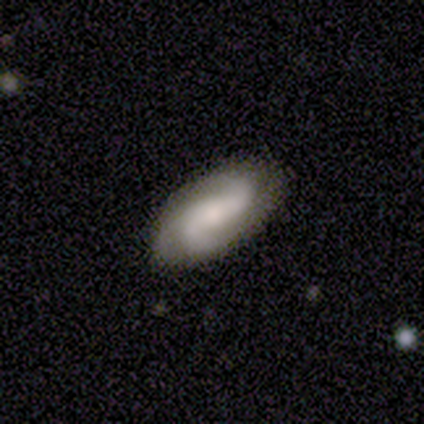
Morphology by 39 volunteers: Overall: featured or disk (79%). Edge-on disk: no (100%). Bar: no (45%; weak 42%). Spiral arms: yes (100%). Spiral arm count: 2 (61%; 3 35%). Spiral winding: medium (45%; loose 39%). Bulge size: moderate (35%; small 32%). Merging: none (74%).